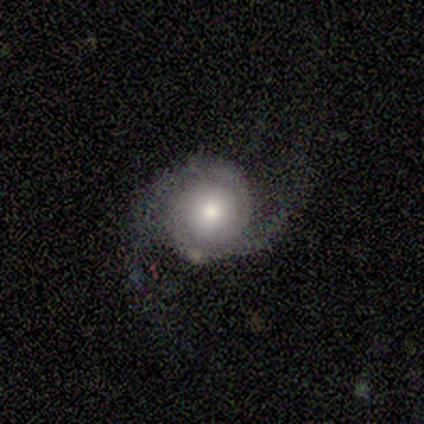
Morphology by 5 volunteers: smooth-or-featured: featured or disk: 80% | smooth: 20% | star or artifact: 0%
  disk-edge-on: no: 100% | yes: 0%
    bar: no: 75% | weak: 25% | strong: 0%
    has-spiral-arms: yes: 75% | no: 25%
      spiral-winding: medium: 67% | loose: 33% | tight: 0%
      spiral-arm-count: 2: 100% | 1: 0% | 3: 0% | 4: 0% | more than 4: 0% | can't tell: 0%
    bulge-size: small: 50% | large: 25% | moderate: 25% | dominant: 0% | none: 0%
  merging: none: 80% | major disturbance: 20% | minor disturbance: 0% | merger: 0%